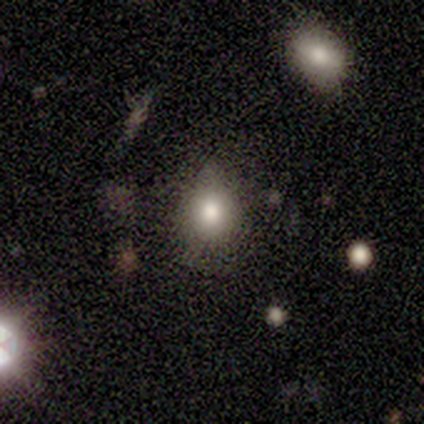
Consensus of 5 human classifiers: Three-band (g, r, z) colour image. It shows a smooth galaxy with no disk features (80%) that is round (75%). Merging: none (100%).